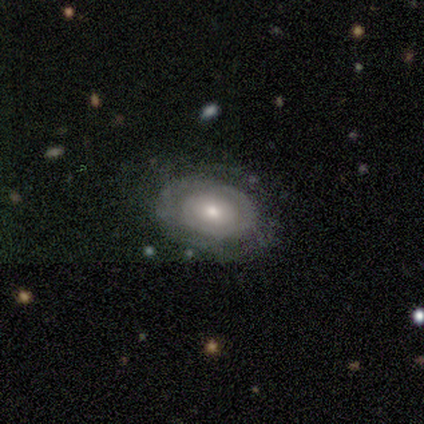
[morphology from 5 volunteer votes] smooth-or-featured: featured or disk: 80% | smooth: 20% | star or artifact: 0%
  disk-edge-on: no: 100% | yes: 0%
    bar: no: 100% | strong: 0% | weak: 0%
    has-spiral-arms: yes: 50% (tied) | no: 50% (tied)
      spiral-winding: tight: 100% | medium: 0% | loose: 0%
      spiral-arm-count: 1: 50% (tied) | 2: 50% (tied) | 3: 0% | 4: 0% | more than 4: 0% | can't tell: 0%
    bulge-size: moderate: 100% | dominant: 0% | large: 0% | small: 0% | none: 0%
  merging: none: 80% | minor disturbance: 20% | major disturbance: 0% | merger: 0%